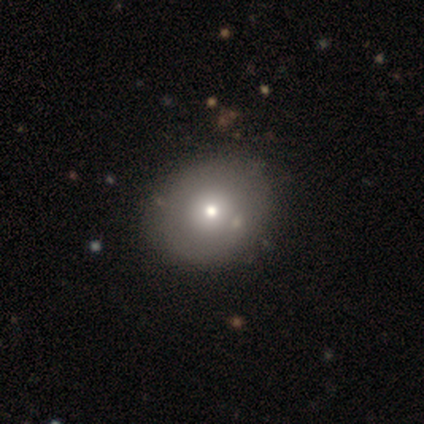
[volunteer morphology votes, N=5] smooth_or_featured: smooth (p=0.60) [alt: featured or disk p=0.40]
how_rounded: round (p=1.00)
merging: none (p=0.80) [alt: minor disturbance p=0.20]